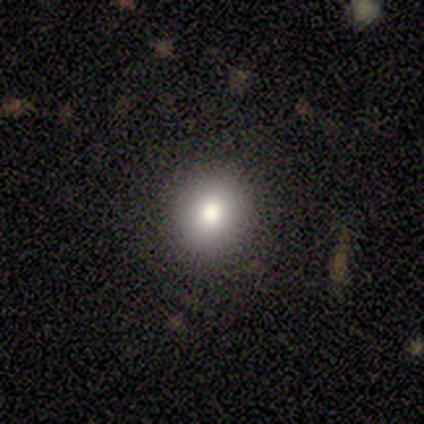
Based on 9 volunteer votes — Smooth or featured? 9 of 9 (100%) said smooth. How rounded? 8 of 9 (89%) said round. Merging? 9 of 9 (100%) said none.